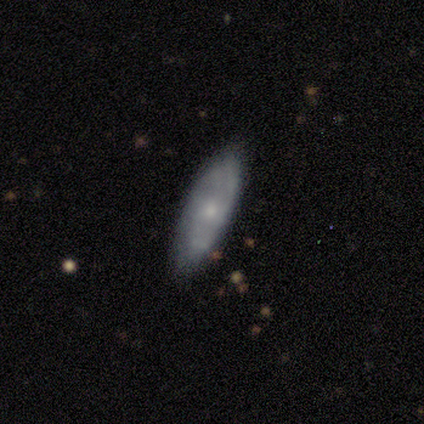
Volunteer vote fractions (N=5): Smooth or featured? 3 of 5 (60%) said featured or disk. Edge-on disk? 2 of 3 (67%) said yes. Edge-on bulge? 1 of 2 (50%, tied with rounded) said none. Merging? 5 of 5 (100%) said none.